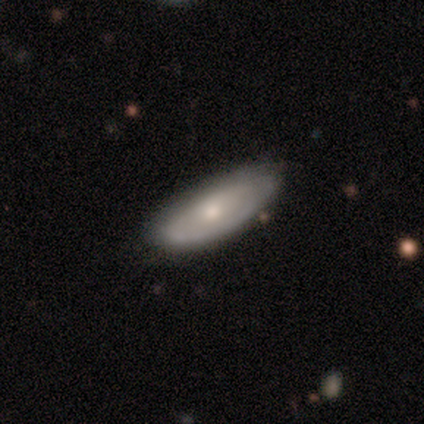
smooth-or-featured: star or artifact: 50% | smooth: 25% | featured or disk: 25%